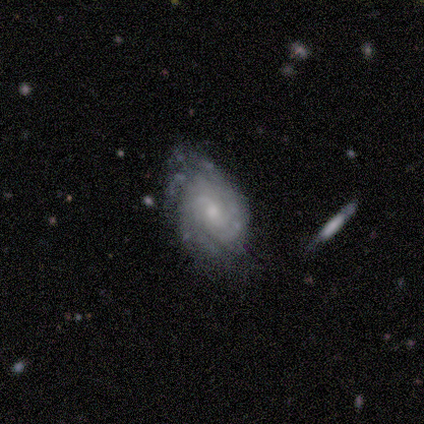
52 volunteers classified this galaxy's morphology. Volunteers were most divided on "merging": none: 45%, minor disturbance: 39%, major disturbance: 12%, merger: 4%. Remaining: edge-on disk — no (96%); smooth or featured — featured or disk (92%); spiral arms — yes (85%); spiral winding — tight (77%); bar — no (67%); bulge size — moderate (54%); spiral arm count — can't tell (46%).